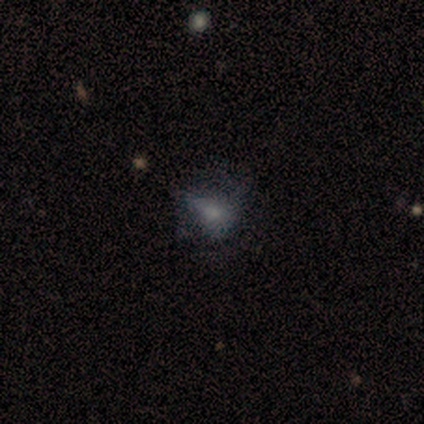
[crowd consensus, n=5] Overall: featured or disk (40%, tied with star or artifact). Edge-on disk: no (100%). Bar: no (100%). Spiral arms: no (100%). Bulge size: large (50%, tied with small). Merging: major disturbance (67%; minor disturbance 33%).